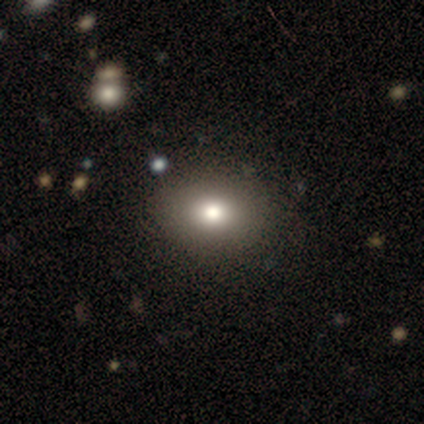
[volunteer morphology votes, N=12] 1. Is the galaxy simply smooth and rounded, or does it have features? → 58% smooth, 33% featured or disk, 8% star or artifact.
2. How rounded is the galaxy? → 71% round, 29% in between, 0% cigar-shaped.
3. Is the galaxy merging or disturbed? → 91% none, 9% minor disturbance, 0% major disturbance, 0% merger.